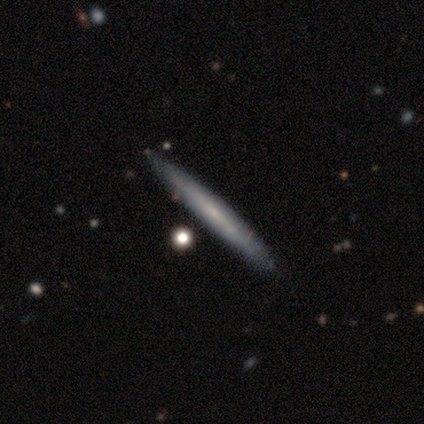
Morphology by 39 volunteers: Smooth or featured: featured or disk — 62% (smooth — 36%)
Edge-on disk: yes — 92% (no — 8%)
Edge-on bulge: none — 68% (rounded — 18%)
Merging: none — 58% (merger — 5%)